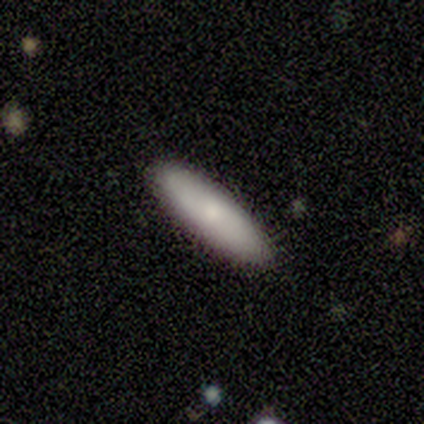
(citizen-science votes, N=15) A smooth galaxy with no disk features (87%) that is in between round and cigar-shaped (54%). Merging: none (93%).